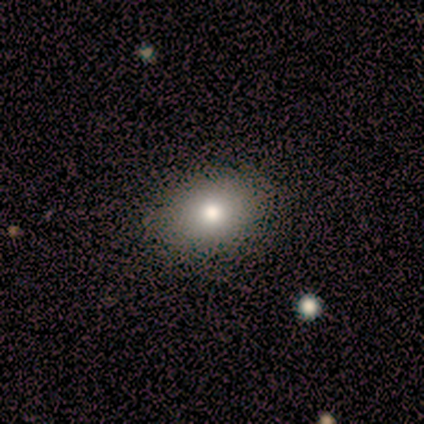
A smooth galaxy with no disk features (100%) that is in between round and cigar-shaped (100%).

Vote fractions:
- Smooth or featured? smooth: 100% / featured or disk: 0% / star or artifact: 0%
- How rounded? in between: 100% / round: 0% / cigar-shaped: 0%
- Merging? none: 100% / minor disturbance: 0% / major disturbance: 0% / merger: 0%